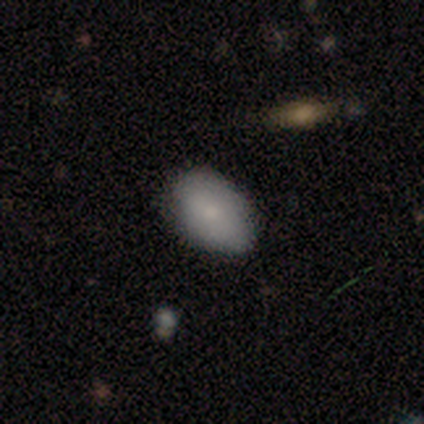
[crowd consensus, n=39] Q: Smooth or featured?
A: smooth (77%); runner-up: featured or disk (13%)
Q: How rounded?
A: in between (87%); runner-up: round (13%)
Q: Merging?
A: none (74%); runner-up: minor disturbance (26%)